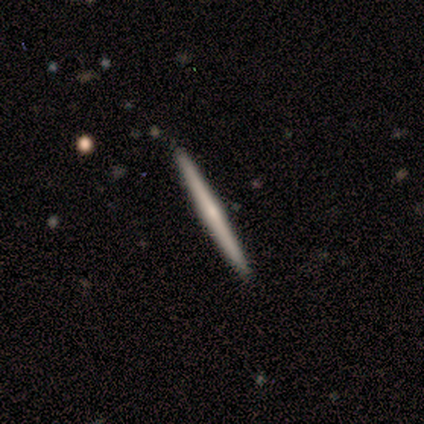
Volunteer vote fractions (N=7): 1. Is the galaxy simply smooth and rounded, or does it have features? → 57% featured or disk, 43% smooth, 0% star or artifact.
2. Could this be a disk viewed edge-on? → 100% yes, 0% no.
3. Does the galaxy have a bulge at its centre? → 50% none (tied), 50% rounded (tied), 0% boxy.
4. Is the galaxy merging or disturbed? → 86% none, 14% merger, 0% minor disturbance, 0% major disturbance.